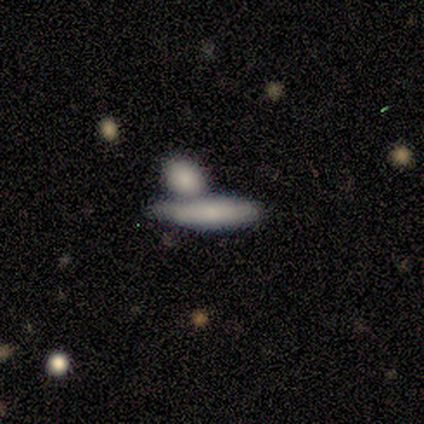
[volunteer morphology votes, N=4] A smooth galaxy with no disk features (50%, tied with featured or disk) that is cigar-shaped (100%). Merging: merger (50%).